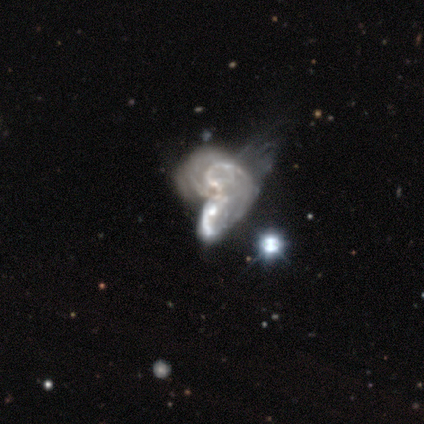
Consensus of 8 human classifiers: Smooth or featured: featured or disk — 62% (star or artifact — 25%)
Edge-on disk: no — 100%
Bar: no — 100%
Spiral arms: yes — 60% (no — 40%)
Spiral winding: medium — 67% (loose — 33%)
Spiral arm count: can't tell — 67% (2 — 33%)
Bulge size: small — 40% (large — 20%)
Merging: merger — 83% (major disturbance — 17%)